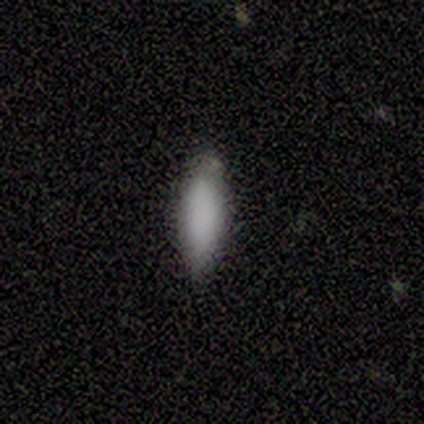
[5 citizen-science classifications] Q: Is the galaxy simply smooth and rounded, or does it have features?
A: smooth — 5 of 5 (100%).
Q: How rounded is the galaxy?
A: in between — 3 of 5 (60%).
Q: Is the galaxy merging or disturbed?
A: none — 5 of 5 (100%).